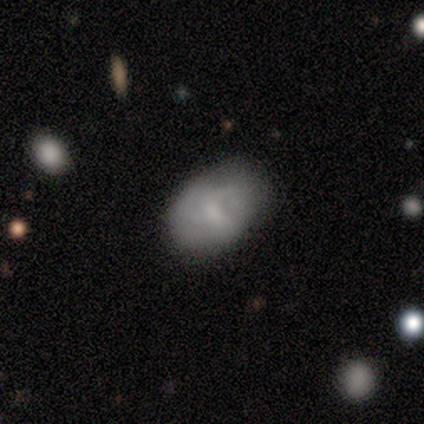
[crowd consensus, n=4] smooth_or_featured: smooth (p=0.75) [alt: featured or disk p=0.25]
how_rounded: in between (p=1.00)
merging: none (p=1.00)